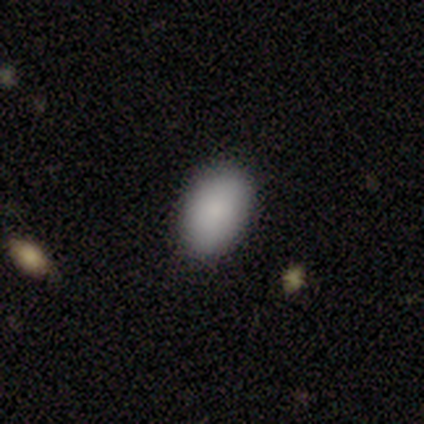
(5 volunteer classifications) Morphology: type=smooth (100%); roundness=in between (100%); merging=none (80%).